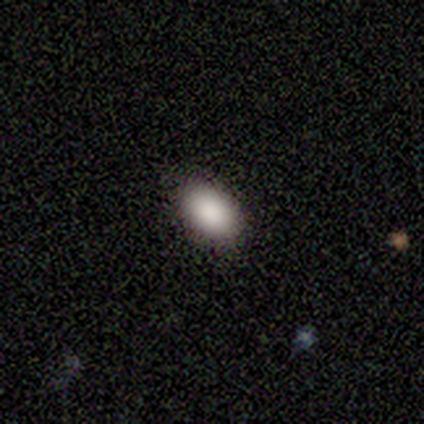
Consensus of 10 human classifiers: smooth 100%, featured or disk 0%, star or artifact 0%. Down the decision tree: how rounded — in between (90%); merging — none (80%).